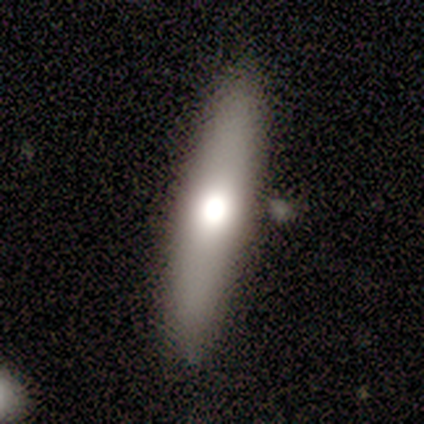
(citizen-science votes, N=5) Smooth or featured: smooth — 80% (featured or disk — 20%)
How rounded: in between — 75% (cigar-shaped — 25%)
Merging: none — 100%